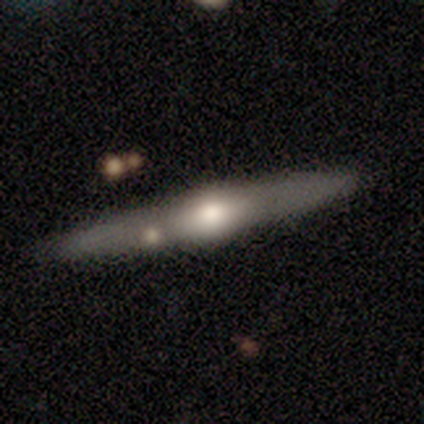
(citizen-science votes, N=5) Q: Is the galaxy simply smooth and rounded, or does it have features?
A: featured or disk — 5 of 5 (100%).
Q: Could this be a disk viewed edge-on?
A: yes — 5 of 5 (100%).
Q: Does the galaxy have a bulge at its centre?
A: rounded — 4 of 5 (80%).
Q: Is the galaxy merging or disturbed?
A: none — 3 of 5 (60%).